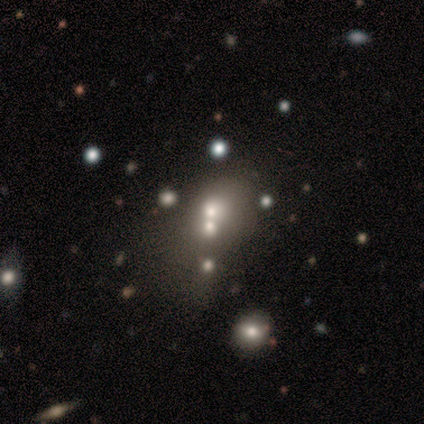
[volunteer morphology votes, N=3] Smooth or featured?
  - smooth: 100% *
  - featured or disk: 0%
  - star or artifact: 0%
How rounded?
  - round: 67% *
  - in between: 33%
  - cigar-shaped: 0%
Merging?
  - none: 67% *
  - minor disturbance: 33%
  - major disturbance: 0%
  - merger: 0%